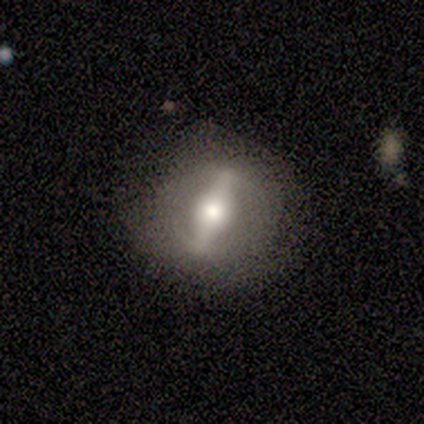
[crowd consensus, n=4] smooth_or_featured: featured or disk (p=1.00)
disk_edge_on: no (p=1.00)
bar: strong (p=1.00)
has_spiral_arms: yes (p=0.50) [tied with: no p=0.50]
spiral_winding: tight (p=0.50) [tied with: medium p=0.50]
spiral_arm_count: 2 (p=0.50) [tied with: can't tell p=0.50]
bulge_size: moderate (p=0.75) [alt: large p=0.25]
merging: none (p=0.75) [alt: minor disturbance p=0.25]